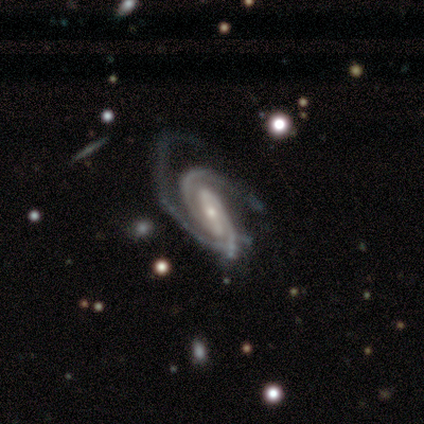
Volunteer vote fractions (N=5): Smooth or featured? featured or disk (100%)
Edge-on disk? no (100%)
Bar? strong (60%)
Spiral arms? yes (100%)
Spiral winding? medium (60%)
Spiral arm count? 2 (80%)
Bulge size? small (60%)
Merging? none (40%)